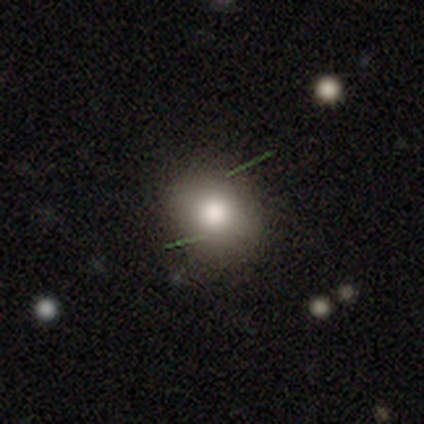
Smooth or featured? 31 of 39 (79%) said smooth. How rounded? 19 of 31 (61%) said round. Merging? 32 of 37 (86%) said none.